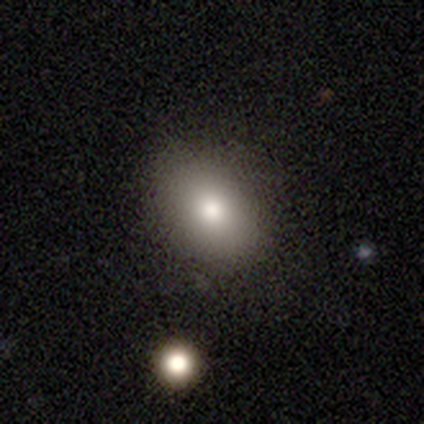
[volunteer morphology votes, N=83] Overall: smooth (73%). How rounded: in between (64%; round 34%). Merging: none (86%).